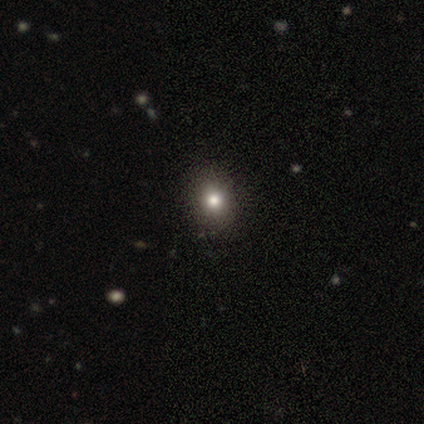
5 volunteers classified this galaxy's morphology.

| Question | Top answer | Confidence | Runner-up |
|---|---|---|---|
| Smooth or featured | smooth | 80% | star or artifact (20%) |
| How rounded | round | 75% | in between (25%) |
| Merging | none | 100% | — |